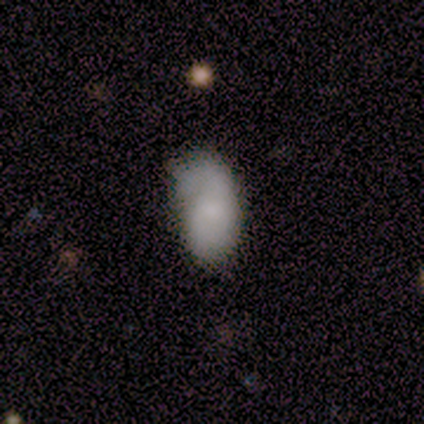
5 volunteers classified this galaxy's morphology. Smooth or featured? smooth (60%)
How rounded? in between (100%)
Merging? major disturbance (60%)